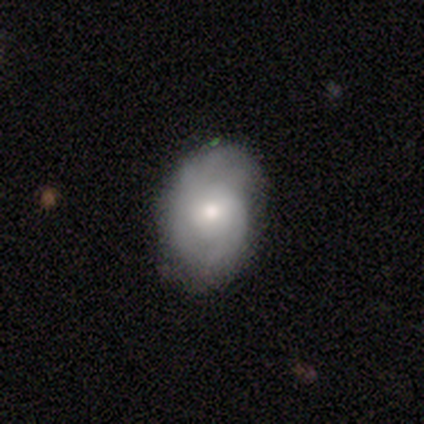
Smooth or featured?
  - featured or disk: 56% *
  - smooth: 36%
  - star or artifact: 8%
Edge-on disk?
  - no: 100% *
  - yes: 0%
Bar?
  - no: 68% *
  - weak: 32%
  - strong: 0%
Spiral arms?
  - yes: 73% *
  - no: 27%
Spiral winding?
  - medium: 62% *
  - tight: 25%
  - loose: 12%
Spiral arm count?
  - can't tell: 44% *
  - 2: 38%
  - 3: 12%
  - 1: 6%
  - 4: 0%
  - more than 4: 0%
Bulge size?
  - moderate: 64% *
  - small: 27%
  - large: 9%
  - dominant: 0%
  - none: 0%
Merging?
  - none: 69% *
  - minor disturbance: 22%
  - major disturbance: 6%
  - merger: 3%